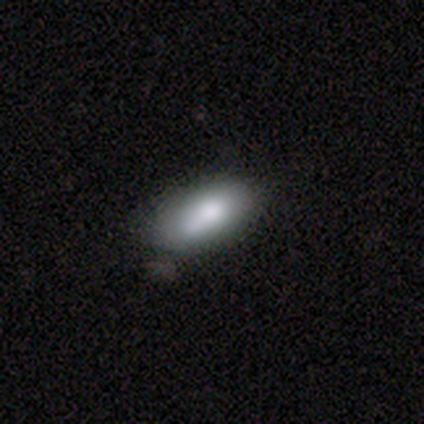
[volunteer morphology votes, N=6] A smooth galaxy with no disk features (83%) that is in between round and cigar-shaped (100%). Merging: none (67%).